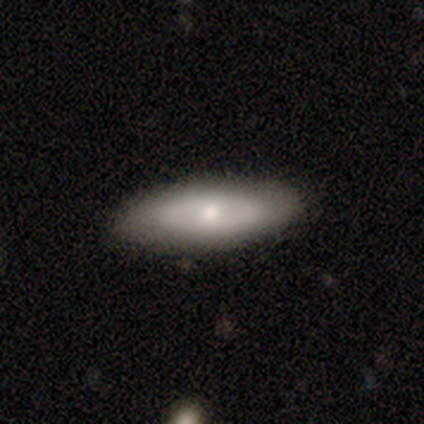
Smooth or featured?
  - featured or disk: 60% *
  - smooth: 40%
  - star or artifact: 0%
Edge-on disk?
  - no: 67% *
  - yes: 33%
Bar?
  - no: 100% *
  - strong: 0%
  - weak: 0%
Spiral arms?
  - no: 100% *
  - yes: 0%
Bulge size?
  - moderate: 50% * (tied)
  - small: 50% * (tied)
  - dominant: 0%
  - large: 0%
  - none: 0%
Merging?
  - none: 80% *
  - minor disturbance: 20%
  - major disturbance: 0%
  - merger: 0%